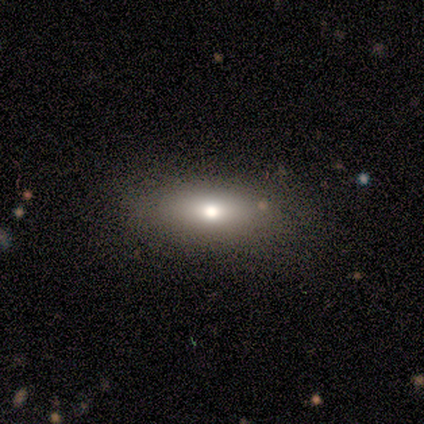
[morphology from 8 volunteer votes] This is likely a smooth galaxy (62%). How rounded: clearly in between (80%). Merging: clearly none (86%).